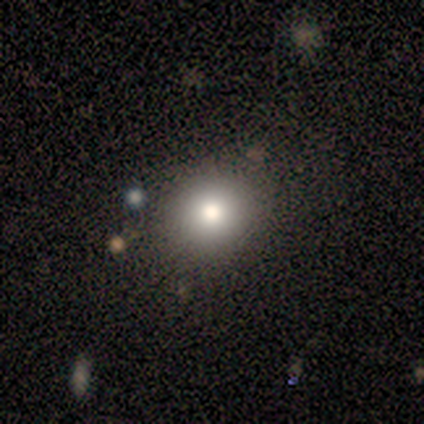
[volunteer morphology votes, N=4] smooth 50% (tied), featured or disk 50% (tied), star or artifact 0%. Down the decision tree: how rounded — round (100%); merging — none (75%).